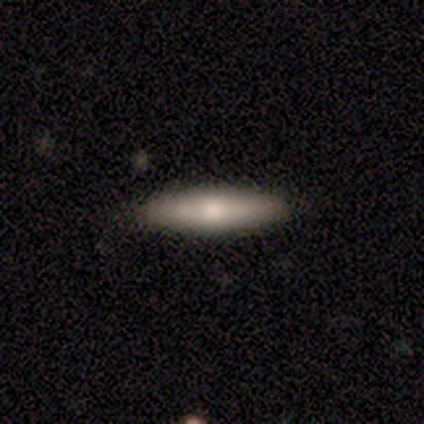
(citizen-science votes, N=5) smooth-or-featured: smooth: 60% | featured or disk: 40% | star or artifact: 0%
  how-rounded: cigar-shaped: 100% | round: 0% | in between: 0%
  merging: none: 100% | minor disturbance: 0% | major disturbance: 0% | merger: 0%